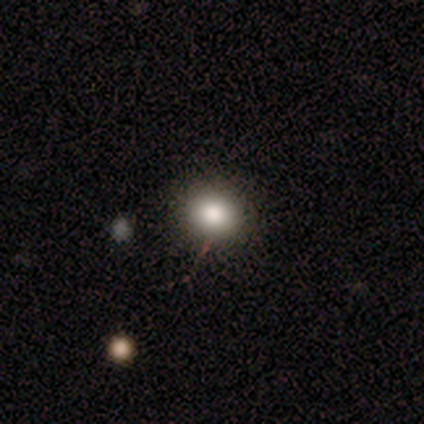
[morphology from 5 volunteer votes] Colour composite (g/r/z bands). It shows a smooth galaxy with no disk features (40%, tied with star or artifact) that is round (100%). Merging: none (100%).